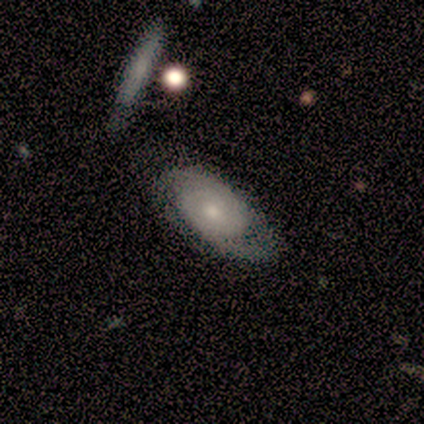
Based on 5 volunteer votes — Smooth or featured: featured or disk — 100%
Edge-on disk: no — 80% (yes — 20%)
Bar: no — 100%
Spiral arms: yes — 100%
Spiral winding: tight — 50% (tied with medium — 50%)
Spiral arm count: 2 — 75% (can't tell — 25%)
Bulge size: moderate — 75% (small — 25%)
Merging: none — 100%